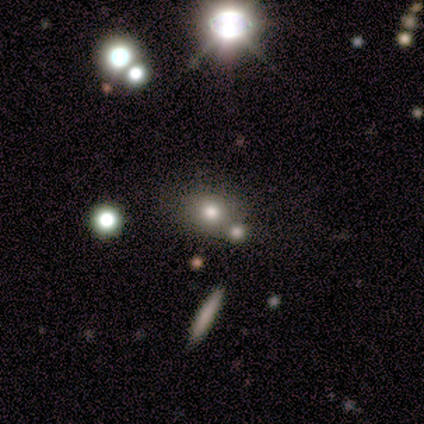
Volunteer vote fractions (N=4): smooth_or_featured: smooth (p=0.50) [alt: featured or disk p=0.25]
how_rounded: round (p=1.00)
merging: none (p=0.67) [alt: merger p=0.33]